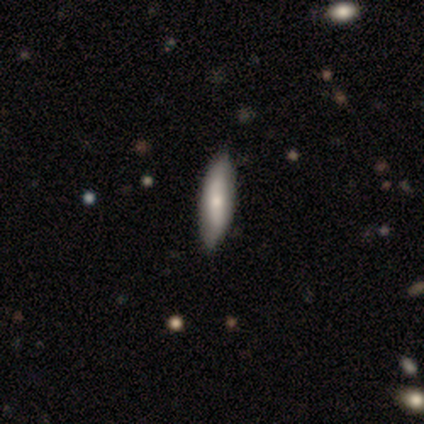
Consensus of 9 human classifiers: A smooth galaxy with no disk features (56%) that is in between round and cigar-shaped (60%). Merging: none (62%).